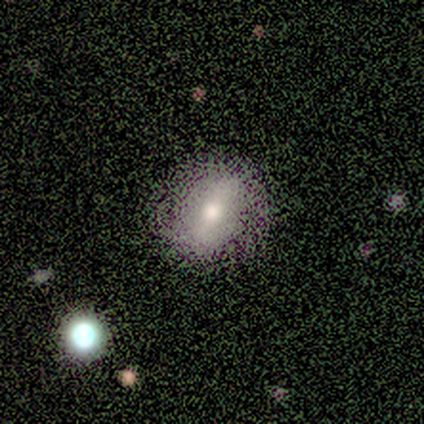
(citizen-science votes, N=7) smooth_or_featured: smooth (p=0.57) [alt: featured or disk p=0.43]
how_rounded: in between (p=0.75) [alt: round p=0.25]
merging: none (p=0.86) [alt: minor disturbance p=0.14]